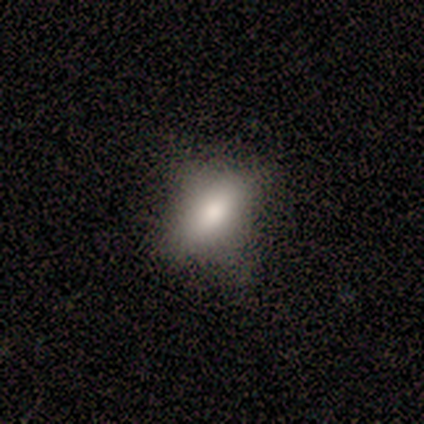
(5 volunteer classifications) Volunteers were most divided on "how rounded": in between: 75%, cigar-shaped: 25%, round: 0%. More confident: merging — none (100%); smooth or featured — smooth (80%).